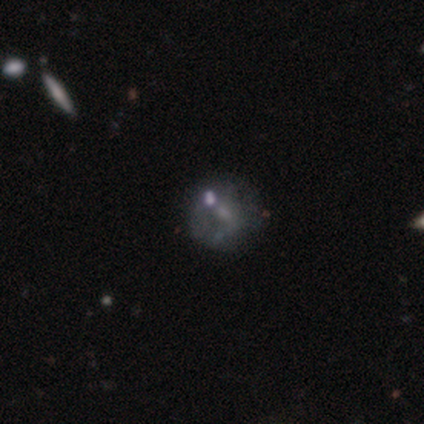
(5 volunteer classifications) Smooth or featured?
  - smooth: 80% *
  - featured or disk: 20%
  - star or artifact: 0%
How rounded?
  - round: 50% * (tied)
  - in between: 50% * (tied)
  - cigar-shaped: 0%
Merging?
  - none: 60% *
  - minor disturbance: 20%
  - merger: 20%
  - major disturbance: 0%